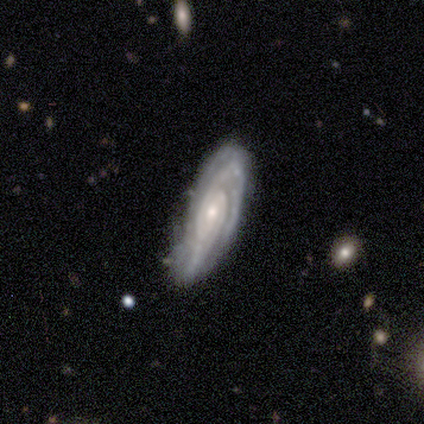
Smooth or featured?
  - featured or disk: 100% *
  - smooth: 0%
  - star or artifact: 0%
Edge-on disk?
  - no: 80% *
  - yes: 20%
Bar?
  - no: 50% *
  - strong: 25%
  - weak: 25%
Spiral arms?
  - yes: 100% *
  - no: 0%
Spiral winding?
  - tight: 75% *
  - medium: 25%
  - loose: 0%
Spiral arm count?
  - can't tell: 50% *
  - 2: 25%
  - 3: 25%
  - 1: 0%
  - 4: 0%
  - more than 4: 0%
Bulge size?
  - small: 75% *
  - moderate: 25%
  - dominant: 0%
  - large: 0%
  - none: 0%
Merging?
  - none: 60% *
  - minor disturbance: 40%
  - major disturbance: 0%
  - merger: 0%